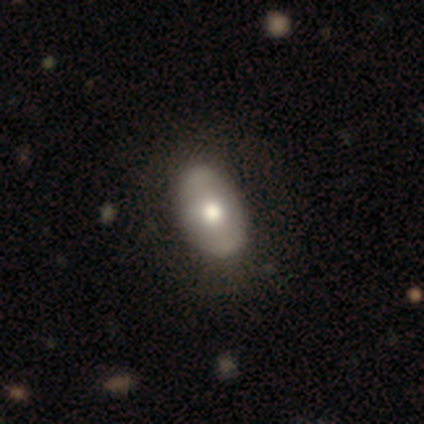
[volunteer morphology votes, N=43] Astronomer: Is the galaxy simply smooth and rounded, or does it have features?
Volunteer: smooth — 63%.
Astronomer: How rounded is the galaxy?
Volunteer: in between — 96%.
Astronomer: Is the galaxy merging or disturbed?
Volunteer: none — 51%.